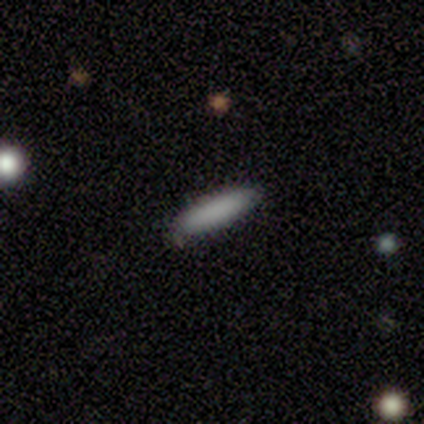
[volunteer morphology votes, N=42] Smooth or featured? smooth (90%)
How rounded? cigar-shaped (55%)
Merging? none (90%)